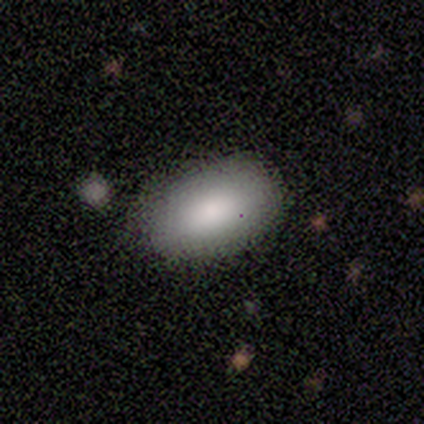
Smooth or featured? smooth (94%)
How rounded? in between (97%)
Merging? none (83%)